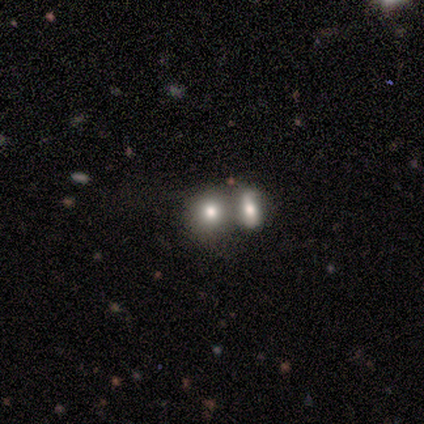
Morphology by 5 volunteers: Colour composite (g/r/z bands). It shows a smooth galaxy with no disk features (100%) that is round (60%). Merging: none (60%).